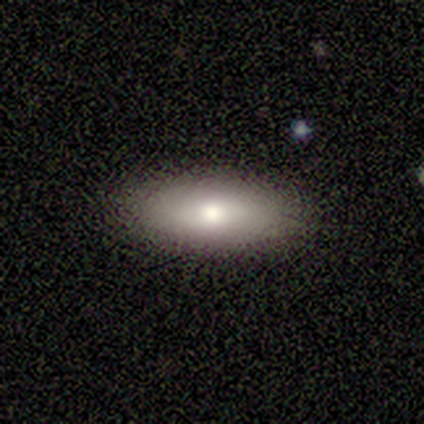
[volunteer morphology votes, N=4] Smooth or featured? smooth (50%)
How rounded? in between (100%)
Merging? none (100%)